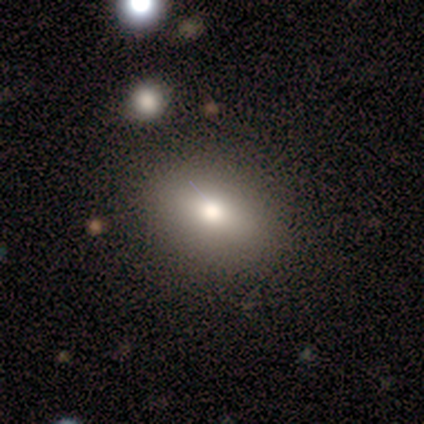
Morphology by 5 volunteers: smooth 80%, featured or disk 20%, star or artifact 0%. Down the decision tree: how rounded — in between (100%); merging — none (100%).